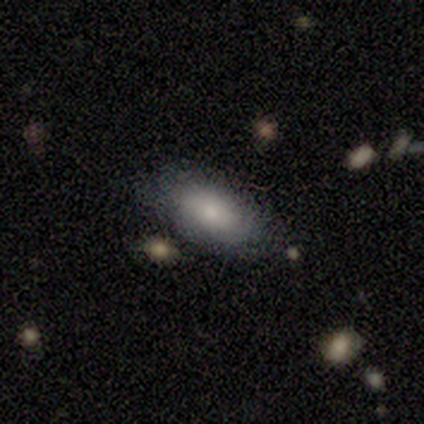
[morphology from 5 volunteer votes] Smooth or featured: smooth — 80% (featured or disk — 20%)
How rounded: in between — 75% (round — 25%)
Merging: none — 80% (minor disturbance — 20%)